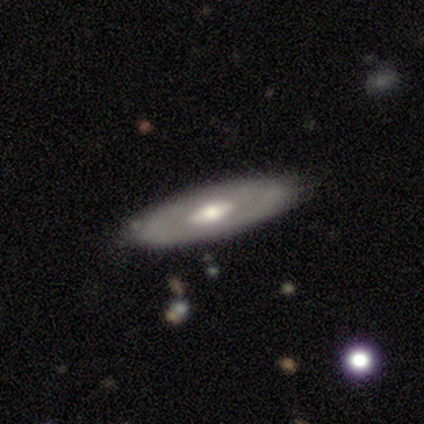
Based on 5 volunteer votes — A featured or disk galaxy (60%) with no bar (100%), tight (100%) spiral arms (50%, tied with no) and a moderate central bulge (100%). Merging: none (80%).